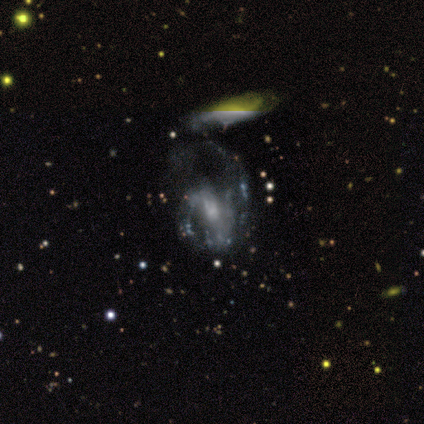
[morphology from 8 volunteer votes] Smooth or featured? featured or disk (88%)
Edge-on disk? no (100%)
Bar? weak (57%)
Spiral arms? yes (71%)
Spiral winding? loose (60%)
Spiral arm count? 2 (80%)
Bulge size? small (71%)
Merging? major disturbance (38%, tied with merger)